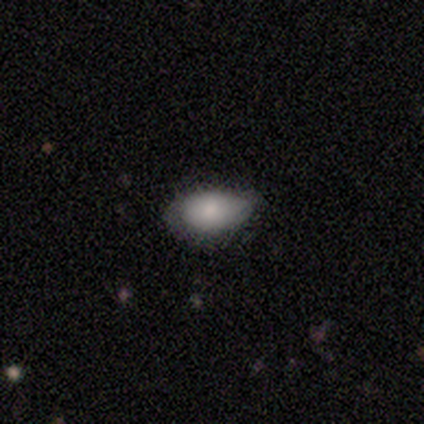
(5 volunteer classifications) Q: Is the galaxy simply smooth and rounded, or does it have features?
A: smooth — 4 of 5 (80%).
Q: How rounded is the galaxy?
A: in between — 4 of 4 (100%).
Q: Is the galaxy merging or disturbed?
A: none — 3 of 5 (60%).